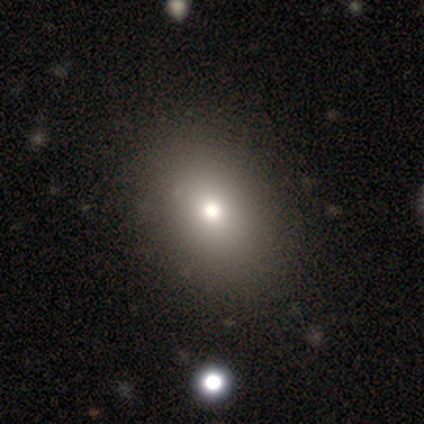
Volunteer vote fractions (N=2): Morphology: type=smooth (100%); roundness=in between (100%); merging=none (50%, tied with major disturbance).